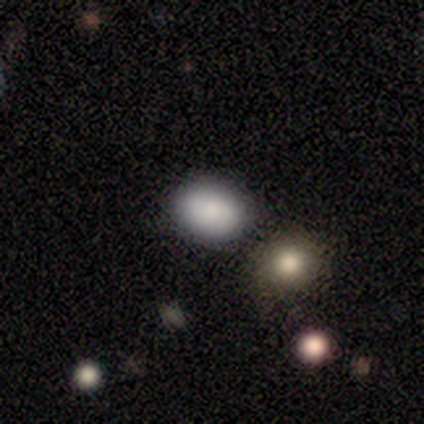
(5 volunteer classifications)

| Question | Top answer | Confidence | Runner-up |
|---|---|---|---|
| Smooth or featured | smooth | 80% | featured or disk (20%) |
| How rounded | round | 50% | tied: in between (50%) |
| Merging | none | 40% | tied: minor disturbance (40%) |